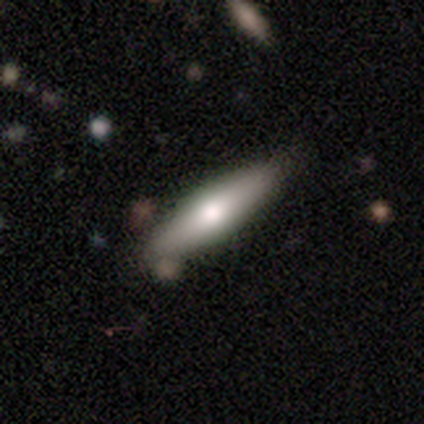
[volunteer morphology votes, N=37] Overall: smooth (49%; featured or disk 46%). How rounded: cigar-shaped (83%). Merging: none (60%; minor disturbance 34%).